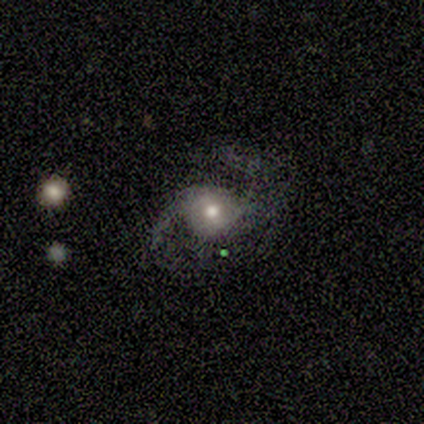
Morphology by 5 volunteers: smooth-or-featured: smooth: 60% | featured or disk: 40% | star or artifact: 0%
  how-rounded: round: 67% | in between: 33% | cigar-shaped: 0%
  merging: none: 40% (tied) | major disturbance: 40% (tied) | minor disturbance: 20% | merger: 0%